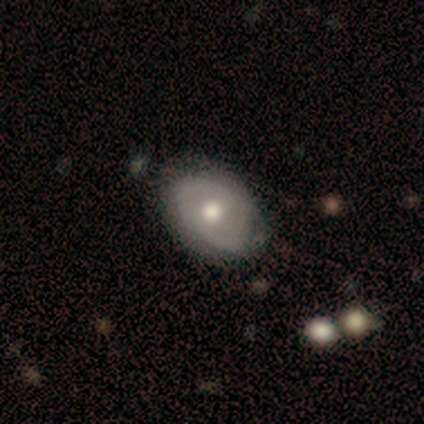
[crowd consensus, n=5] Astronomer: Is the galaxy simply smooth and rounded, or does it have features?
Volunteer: featured or disk — 60% (runner-up: smooth, 40%).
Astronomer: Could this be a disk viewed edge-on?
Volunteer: no — 100%.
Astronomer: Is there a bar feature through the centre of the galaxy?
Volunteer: no — 67%.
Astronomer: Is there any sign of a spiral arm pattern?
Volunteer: yes — 100%.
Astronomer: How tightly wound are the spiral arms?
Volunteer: loose — 67%.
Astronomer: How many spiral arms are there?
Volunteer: can't tell — 100%.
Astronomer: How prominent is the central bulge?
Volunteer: moderate — 67%.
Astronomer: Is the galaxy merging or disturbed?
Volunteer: none — 100%.